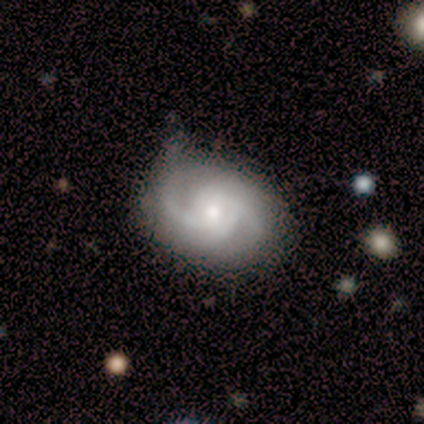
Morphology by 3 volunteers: Smooth or featured? featured or disk (100%)
Edge-on disk? no (100%)
Bar? no (100%)
Spiral arms? yes (100%)
Spiral winding? medium (67%)
Spiral arm count? 2 (33%, tied with 3 and 4)
Bulge size? moderate (100%)
Merging? none (100%)